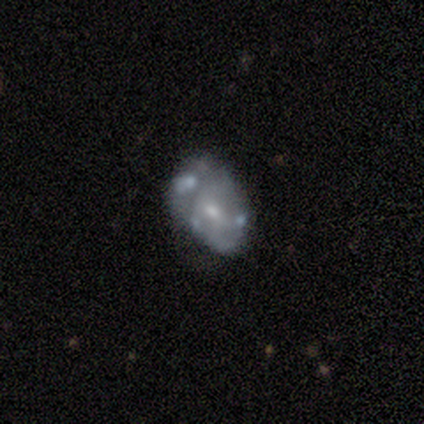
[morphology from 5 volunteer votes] Smooth or featured: featured or disk — 80% (smooth — 20%)
Edge-on disk: no — 100%
Bar: no — 50% (strong — 25%)
Spiral arms: no — 75% (yes — 25%)
Bulge size: moderate — 75% (small — 25%)
Merging: none — 60% (minor disturbance — 40%)